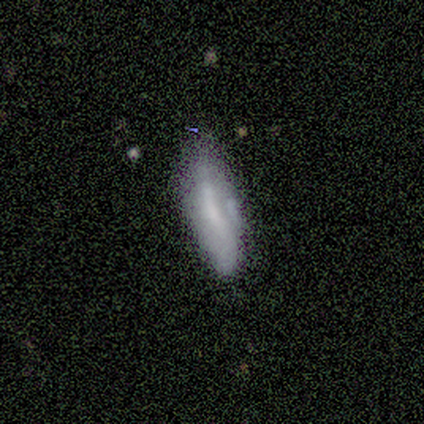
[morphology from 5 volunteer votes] Volunteers were most divided on "how rounded": in between: 75%, cigar-shaped: 25%, round: 0%. More confident: smooth or featured — smooth (80%); merging — minor disturbance (75%).